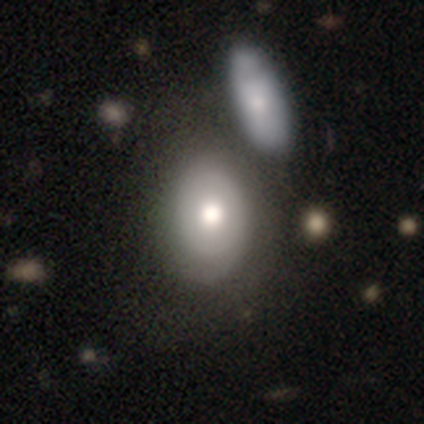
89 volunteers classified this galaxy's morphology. type=smooth (67%); roundness=in between (68%); merging=none (47%).